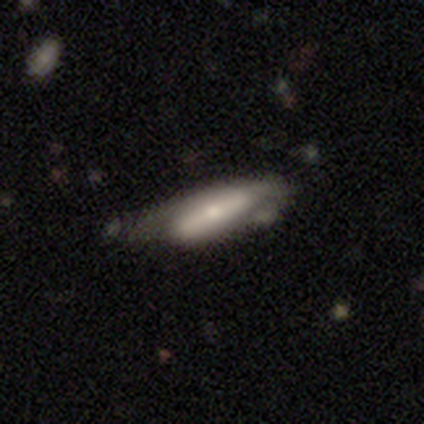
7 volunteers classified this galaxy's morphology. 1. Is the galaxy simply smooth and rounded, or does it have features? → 57% smooth, 43% featured or disk, 0% star or artifact.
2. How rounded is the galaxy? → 75% in between, 25% cigar-shaped, 0% round.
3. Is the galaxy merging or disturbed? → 43% major disturbance, 29% none, 29% minor disturbance, 0% merger.